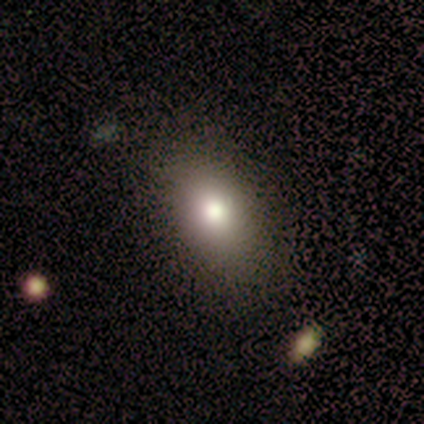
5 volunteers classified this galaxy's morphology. A smooth galaxy with no disk features (80%) that is in between round and cigar-shaped (75%). Merging: none (100%).